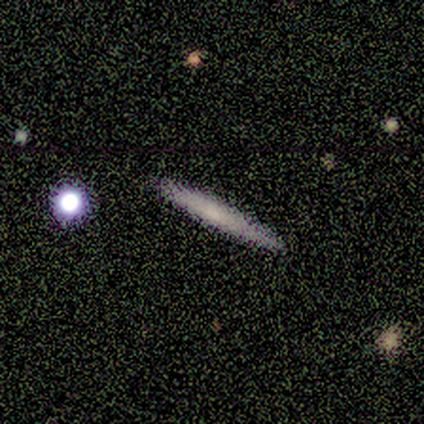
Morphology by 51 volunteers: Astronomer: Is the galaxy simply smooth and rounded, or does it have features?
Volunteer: smooth — 63%.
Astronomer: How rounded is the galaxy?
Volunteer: cigar-shaped — 97%.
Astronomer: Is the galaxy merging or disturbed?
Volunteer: none — 90%.